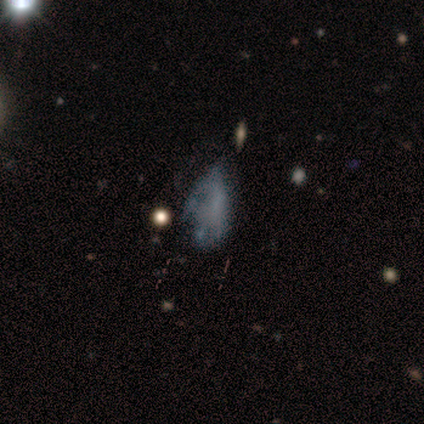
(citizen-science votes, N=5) Q: Smooth or featured?
A: star or artifact (60%); runner-up: featured or disk (40%)